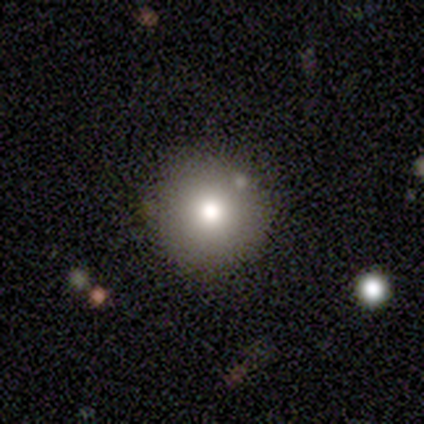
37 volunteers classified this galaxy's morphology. Smooth or featured? 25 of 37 (68%) said smooth. How rounded? 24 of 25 (96%) said round. Merging? 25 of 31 (81%) said none.